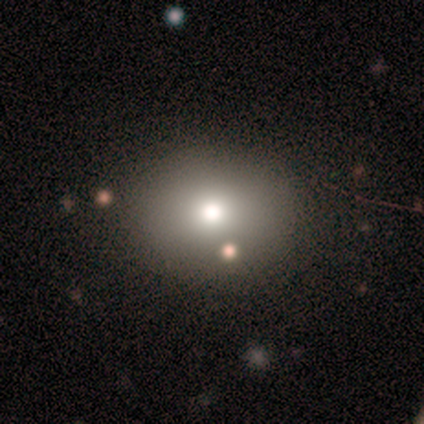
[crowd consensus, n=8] Smooth or featured? smooth (88%)
How rounded? in between (57%)
Merging? none (86%)